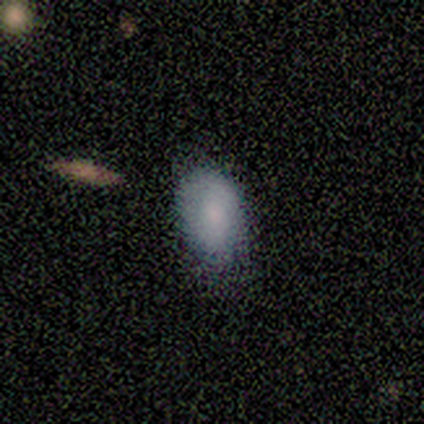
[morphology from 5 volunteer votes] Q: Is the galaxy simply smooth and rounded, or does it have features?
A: smooth — 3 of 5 (60%).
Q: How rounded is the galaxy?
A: in between — 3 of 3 (100%).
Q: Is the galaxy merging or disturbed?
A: none — 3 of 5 (60%).